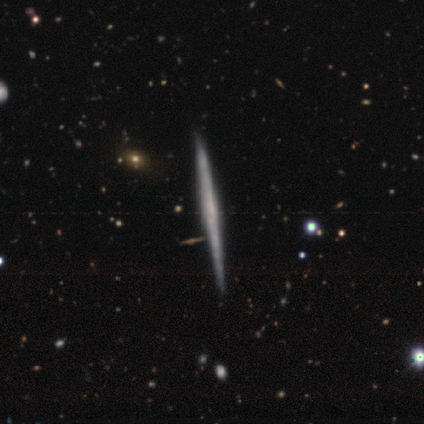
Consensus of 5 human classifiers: smooth-or-featured: featured or disk: 100% | smooth: 0% | star or artifact: 0%
  disk-edge-on: yes: 100% | no: 0%
    edge-on-bulge: none: 60% | rounded: 40% | boxy: 0%
  merging: none: 100% | minor disturbance: 0% | major disturbance: 0% | merger: 0%